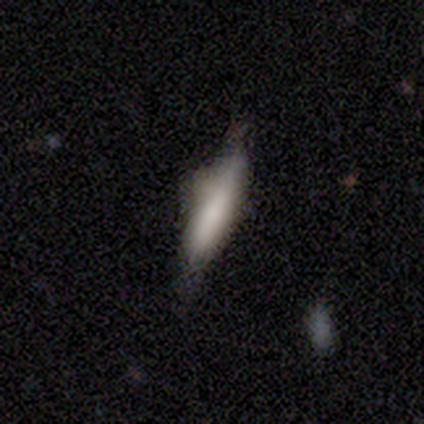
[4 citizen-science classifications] smooth-or-featured: smooth: 100% | featured or disk: 0% | star or artifact: 0%
  how-rounded: cigar-shaped: 75% | in between: 25% | round: 0%
  merging: none: 75% | minor disturbance: 25% | major disturbance: 0% | merger: 0%